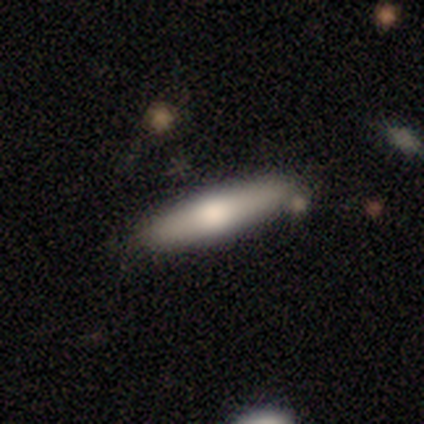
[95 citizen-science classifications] Q: Smooth or featured?
A: smooth (59%); runner-up: featured or disk (38%)
Q: How rounded?
A: cigar-shaped (80%); runner-up: in between (20%)
Q: Merging?
A: none (84%); runner-up: minor disturbance (11%)